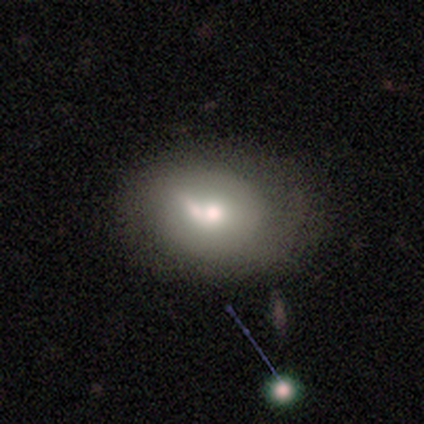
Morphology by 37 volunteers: smooth_or_featured: smooth (p=0.51) [alt: featured or disk p=0.38]
how_rounded: in between (p=0.84) [alt: round p=0.16]
merging: none (p=0.39) [tied with: merger p=0.39]